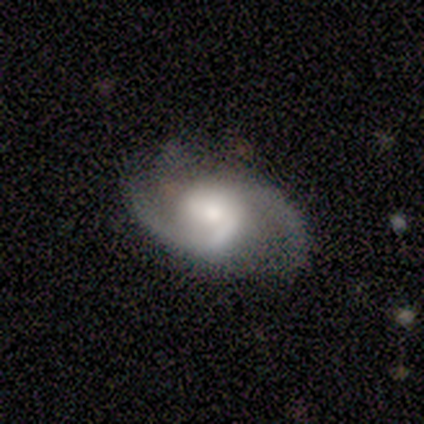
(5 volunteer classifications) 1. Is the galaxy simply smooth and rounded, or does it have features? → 100% featured or disk, 0% smooth, 0% star or artifact.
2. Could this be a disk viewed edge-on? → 100% no, 0% yes.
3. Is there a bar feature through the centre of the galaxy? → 60% weak, 20% strong, 20% no.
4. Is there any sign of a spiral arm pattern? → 100% yes, 0% no.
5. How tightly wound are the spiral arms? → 80% medium, 20% loose, 0% tight.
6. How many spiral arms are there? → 100% 2, 0% 1, 0% 3, 0% 4, 0% more than 4, 0% can't tell.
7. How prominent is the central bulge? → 80% moderate, 20% none, 0% dominant, 0% large, 0% small.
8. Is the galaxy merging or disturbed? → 80% none, 20% minor disturbance, 0% major disturbance, 0% merger.